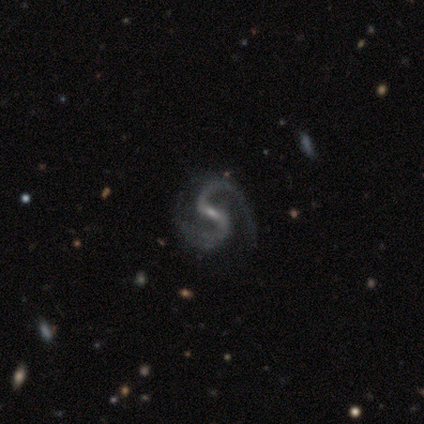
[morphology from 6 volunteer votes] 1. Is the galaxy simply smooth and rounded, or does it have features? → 67% featured or disk, 17% smooth, 17% star or artifact.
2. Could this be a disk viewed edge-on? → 100% no, 0% yes.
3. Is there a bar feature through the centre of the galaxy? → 50% strong (tied), 50% weak (tied), 0% no.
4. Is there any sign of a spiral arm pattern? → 100% yes, 0% no.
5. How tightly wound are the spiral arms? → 75% medium, 25% tight, 0% loose.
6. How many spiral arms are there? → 100% 2, 0% 1, 0% 3, 0% 4, 0% more than 4, 0% can't tell.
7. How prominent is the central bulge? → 75% small, 25% none, 0% dominant, 0% large, 0% moderate.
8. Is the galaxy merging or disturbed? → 40% none (tied), 40% major disturbance (tied), 20% minor disturbance, 0% merger.